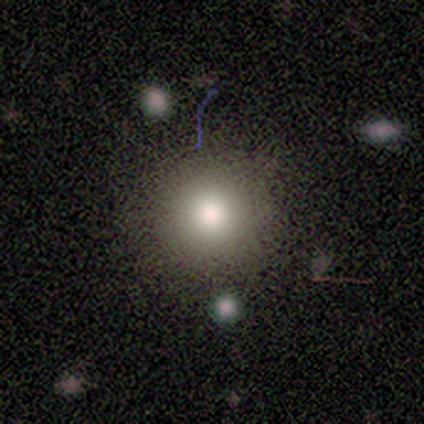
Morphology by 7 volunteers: This is clearly a smooth galaxy (86%). How rounded: clearly round (100%). Merging: possibly none (50%).